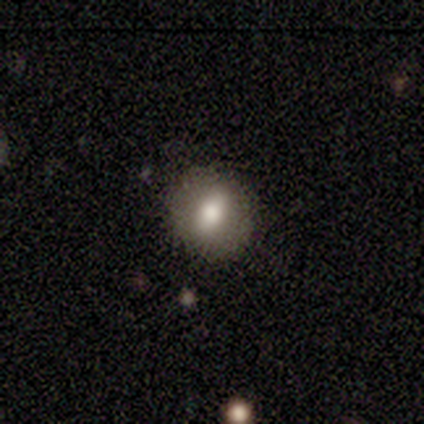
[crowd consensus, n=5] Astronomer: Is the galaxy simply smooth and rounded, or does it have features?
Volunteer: smooth — 100%.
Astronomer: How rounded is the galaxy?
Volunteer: round — 60%.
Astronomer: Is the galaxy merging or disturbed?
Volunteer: none — 100%.